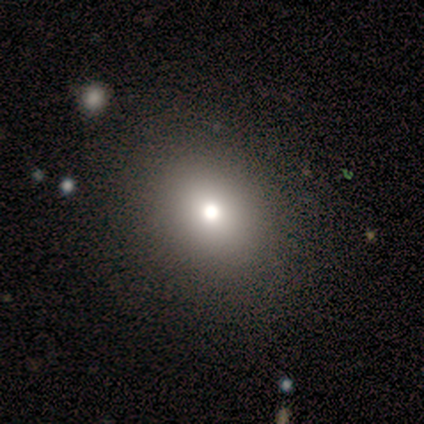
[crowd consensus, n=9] Smooth or featured: smooth — 89% (featured or disk — 11%)
How rounded: in between — 75% (round — 25%)
Merging: none — 89% (minor disturbance — 11%)